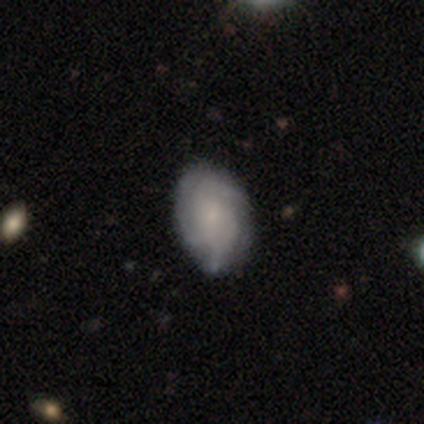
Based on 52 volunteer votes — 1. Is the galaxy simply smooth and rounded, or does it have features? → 65% featured or disk, 31% smooth, 4% star or artifact.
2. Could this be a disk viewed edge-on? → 97% no, 3% yes.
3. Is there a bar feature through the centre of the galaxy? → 82% no, 18% weak, 0% strong.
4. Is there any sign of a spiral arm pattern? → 94% yes, 6% no.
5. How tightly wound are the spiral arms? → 48% tight, 42% medium, 10% loose.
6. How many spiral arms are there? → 45% 3, 35% can't tell, 13% 2, 6% 4, 0% 1, 0% more than 4.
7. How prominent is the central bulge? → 67% small, 15% moderate, 12% none, 6% large, 0% dominant.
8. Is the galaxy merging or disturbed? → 74% none, 20% minor disturbance, 4% major disturbance, 2% merger.